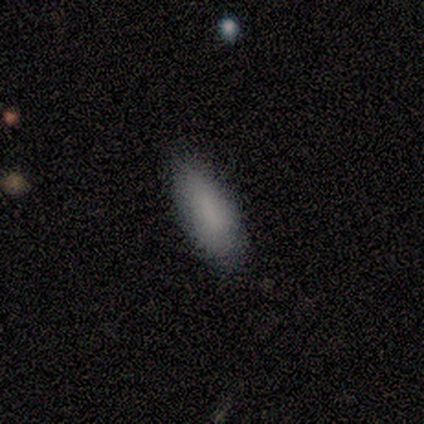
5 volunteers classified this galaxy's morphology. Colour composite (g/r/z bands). It shows a smooth galaxy with no disk features (80%) that is cigar-shaped (75%). Merging: none (75%).